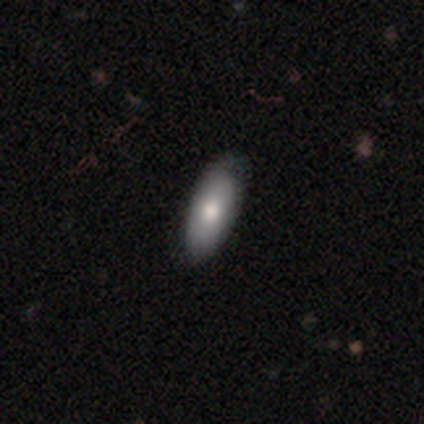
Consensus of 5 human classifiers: Morphology: type=smooth (100%); roundness=in between (100%); merging=none (80%).